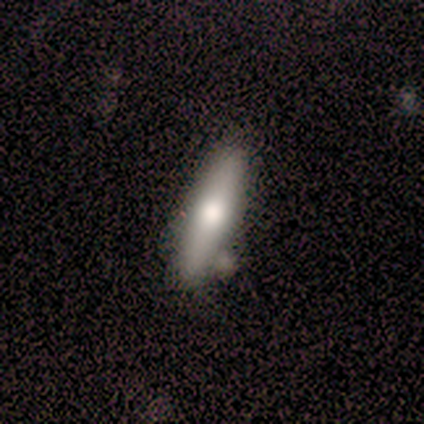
A smooth galaxy with no disk features (50%) that is cigar-shaped (75%).

Vote fractions:
- Smooth or featured? smooth: 50% / featured or disk: 38% / star or artifact: 12%
- How rounded? cigar-shaped: 75% / in between: 25% / round: 0%
- Merging? none: 57% / minor disturbance: 29% / merger: 14% / major disturbance: 0%